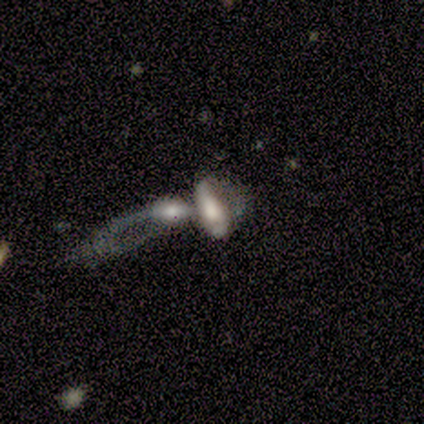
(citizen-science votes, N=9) Smooth or featured? featured or disk (44%)
Edge-on disk? no (75%)
Bar? no (100%)
Spiral arms? no (67%)
Bulge size? moderate (67%)
Merging? merger (83%)